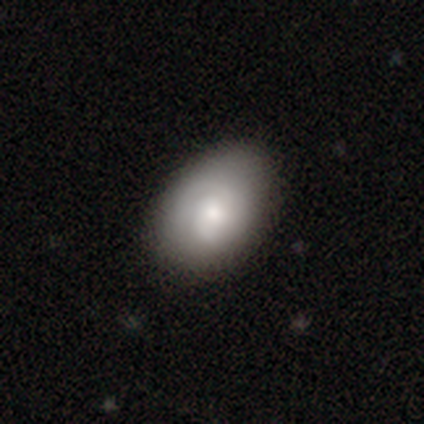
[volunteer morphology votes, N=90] This appears to be a smooth galaxy with no disk features (62%) that is in between round and cigar-shaped (86%). Merging: none (79%).